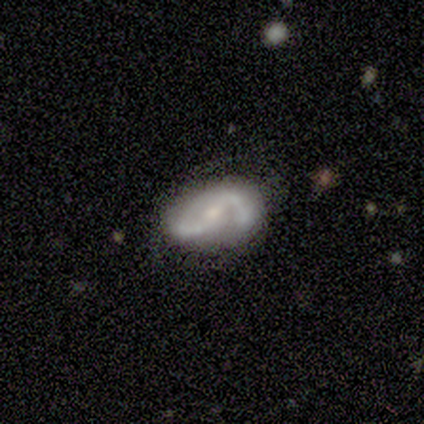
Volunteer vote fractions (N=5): Smooth or featured?
  - featured or disk: 100% *
  - smooth: 0%
  - star or artifact: 0%
Edge-on disk?
  - no: 100% *
  - yes: 0%
Bar?
  - strong: 40% * (tied)
  - no: 40% * (tied)
  - weak: 20%
Spiral arms?
  - yes: 100% *
  - no: 0%
Spiral winding?
  - medium: 60% *
  - tight: 20%
  - loose: 20%
Spiral arm count?
  - 2: 60% *
  - 1: 40%
  - 3: 0%
  - 4: 0%
  - more than 4: 0%
  - can't tell: 0%
Bulge size?
  - moderate: 40% * (tied)
  - small: 40% * (tied)
  - large: 20%
  - dominant: 0%
  - none: 0%
Merging?
  - none: 100% *
  - minor disturbance: 0%
  - major disturbance: 0%
  - merger: 0%